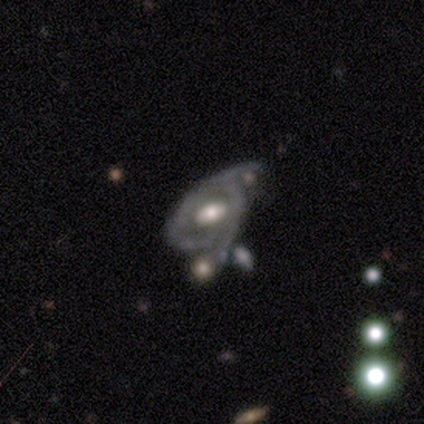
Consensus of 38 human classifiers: Smooth or featured? 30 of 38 (79%) said featured or disk. Edge-on disk? 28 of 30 (93%) said no. Bar? 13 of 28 (46%) said weak. Spiral arms? 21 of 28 (75%) said yes. Spiral winding? 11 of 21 (52%) said medium. Spiral arm count? 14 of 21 (67%) said 2. Bulge size? 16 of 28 (57%) said moderate. Merging? 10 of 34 (29%, tied with merger) said minor disturbance.